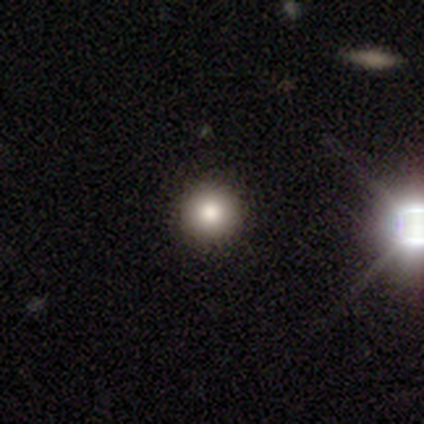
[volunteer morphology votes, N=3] Q: Smooth or featured?
A: smooth (100%)
Q: How rounded?
A: round (100%)
Q: Merging?
A: none (100%)